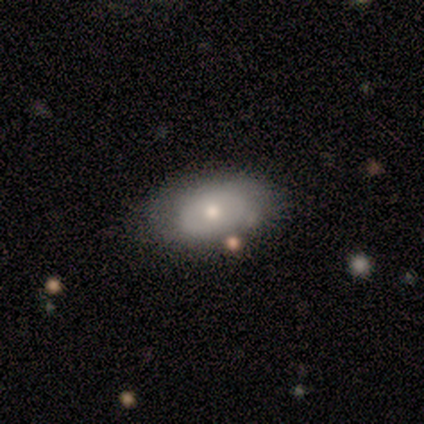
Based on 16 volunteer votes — smooth_or_featured: smooth (p=0.62) [alt: featured or disk p=0.38]
how_rounded: in between (p=1.00)
merging: none (p=0.81) [alt: minor disturbance p=0.19]